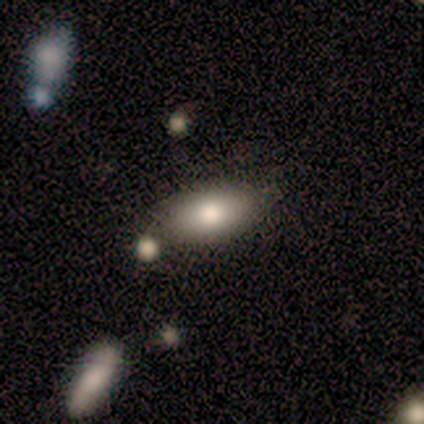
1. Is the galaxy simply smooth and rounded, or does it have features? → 77% smooth, 21% featured or disk, 3% star or artifact.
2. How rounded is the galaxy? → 97% in between, 3% round, 0% cigar-shaped.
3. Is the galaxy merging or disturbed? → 53% none, 18% merger, 3% minor disturbance, 0% major disturbance.